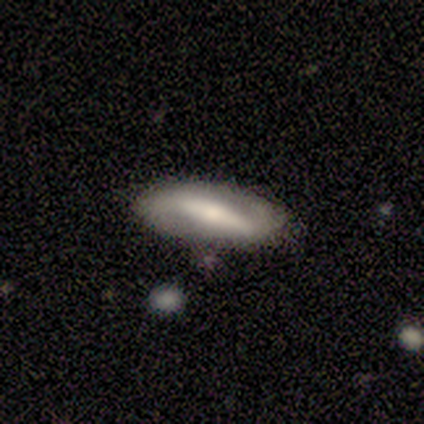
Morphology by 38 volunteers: This is likely a featured or disk galaxy (66%). It is clearly not viewed edge-on (92%). Bar: likely strong (78%). Spiral arm pattern: possibly yes (57%). Spiral arm count: clearly 2 (92%). Spiral winding: possibly loose (46%). Central bulge: marginally moderate (43%). Merging: possibly none (57%).